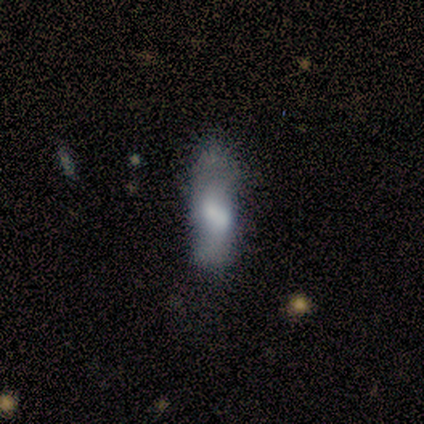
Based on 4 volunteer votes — Volunteers were most divided on "smooth or featured": smooth: 75%, featured or disk: 25%, star or artifact: 0%. More confident: how rounded — in between (100%); merging — minor disturbance (75%).